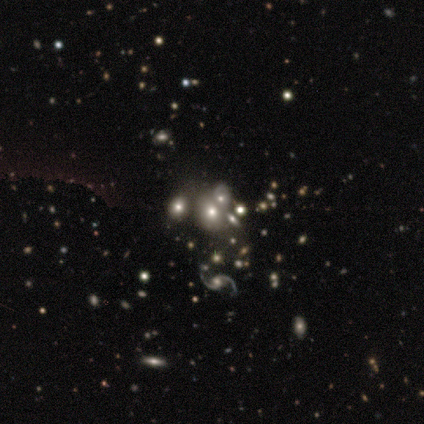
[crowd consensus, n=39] Smooth or featured? 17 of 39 (44%) said featured or disk. Edge-on disk? 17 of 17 (100%) said no. Bar? 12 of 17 (71%) said no. Spiral arms? 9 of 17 (53%) said no. Bulge size? 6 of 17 (35%) said moderate. Merging? 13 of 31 (42%) said merger.